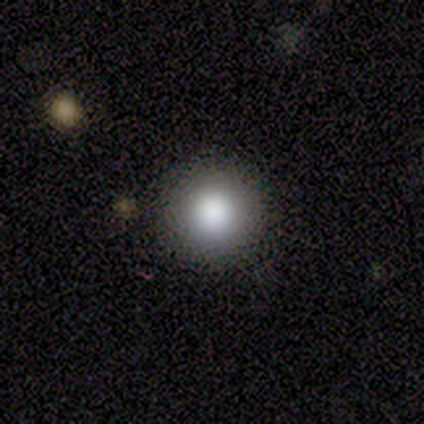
Smooth or featured?
  - smooth: 100% *
  - featured or disk: 0%
  - star or artifact: 0%
How rounded?
  - round: 80% *
  - in between: 20%
  - cigar-shaped: 0%
Merging?
  - none: 100% *
  - minor disturbance: 0%
  - major disturbance: 0%
  - merger: 0%